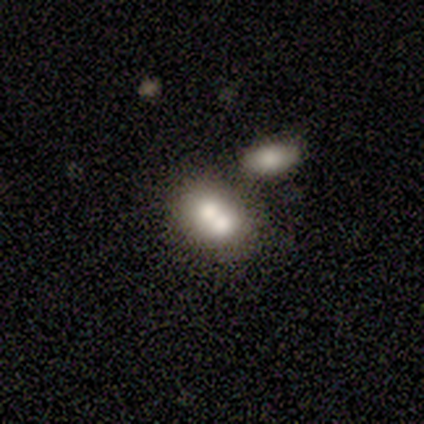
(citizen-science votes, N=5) Smooth or featured: smooth — 80% (featured or disk — 20%)
How rounded: round — 50% (tied with in between — 50%)
Merging: merger — 80% (none — 20%)